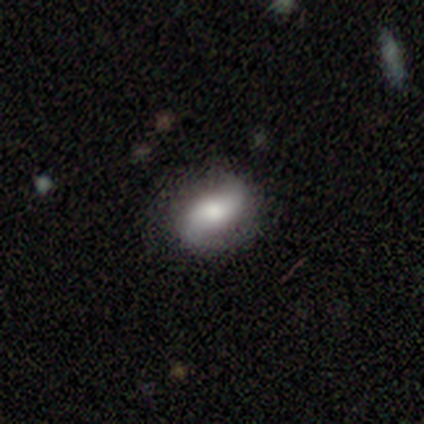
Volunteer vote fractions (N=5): Overall: smooth (40%, tied with featured or disk). How rounded: round (50%, tied with in between). Merging: none (50%, tied with minor disturbance).